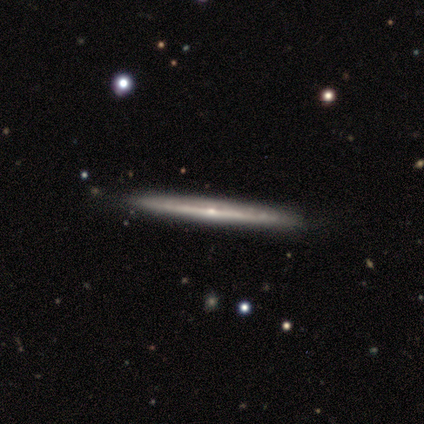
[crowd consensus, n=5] Smooth or featured? 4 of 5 (80%) said featured or disk. Edge-on disk? 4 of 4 (100%) said yes. Edge-on bulge? 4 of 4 (100%) said rounded. Merging? 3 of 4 (75%) said none.